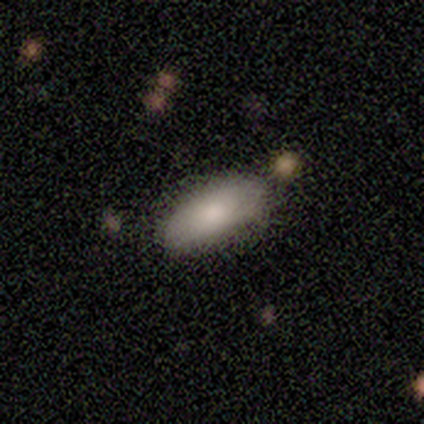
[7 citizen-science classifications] Morphology: type=smooth (86%); roundness=in between (100%); merging=none (71%).